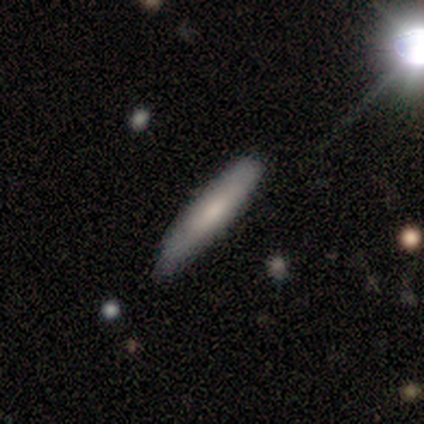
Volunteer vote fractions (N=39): Morphology: type=smooth (64%); roundness=cigar-shaped (92%); merging=none (76%).